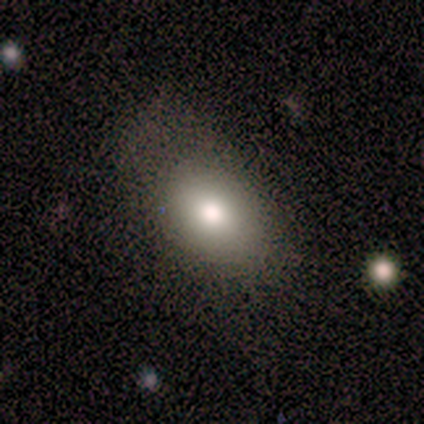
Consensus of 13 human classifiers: Smooth or featured?
  - smooth: 92% *
  - star or artifact: 8%
  - featured or disk: 0%
How rounded?
  - in between: 83% *
  - round: 17%
  - cigar-shaped: 0%
Merging?
  - none: 50% * (tied)
  - minor disturbance: 50% * (tied)
  - major disturbance: 0%
  - merger: 0%